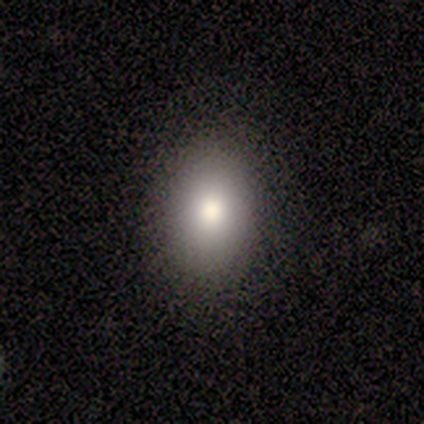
Q: Smooth or featured?
A: smooth (80%); runner-up: featured or disk (20%)
Q: How rounded?
A: in between (100%)
Q: Merging?
A: none (100%)